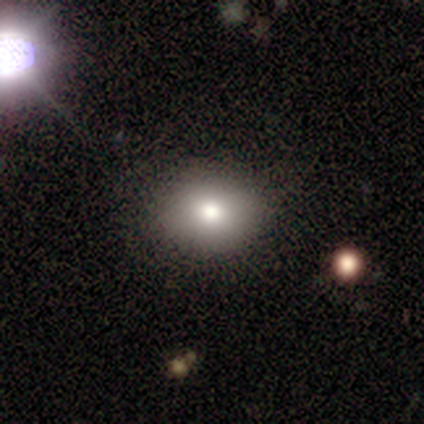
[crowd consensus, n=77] Q: Smooth or featured?
A: smooth (79%); runner-up: star or artifact (19%)
Q: How rounded?
A: round (67%); runner-up: in between (31%)
Q: Merging?
A: none (53%); runner-up: minor disturbance (11%)